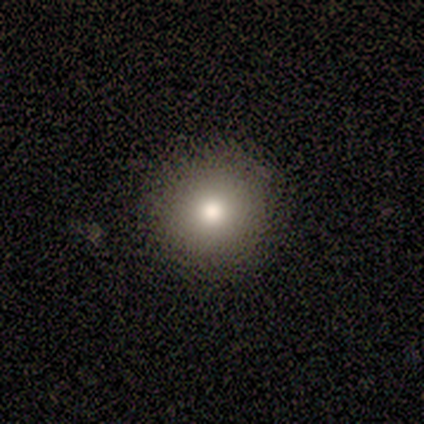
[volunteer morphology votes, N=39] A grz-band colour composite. It shows a smooth galaxy with no disk features (85%) that is round (91%). Merging: none (63%).